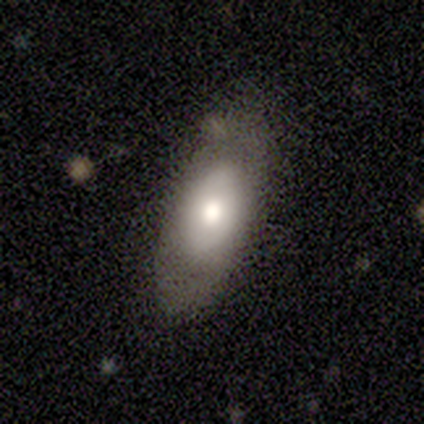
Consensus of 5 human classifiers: Q: Smooth or featured?
A: smooth (60%); runner-up: featured or disk (40%)
Q: How rounded?
A: in between (67%); runner-up: round (33%)
Q: Merging?
A: none (80%); runner-up: major disturbance (20%)